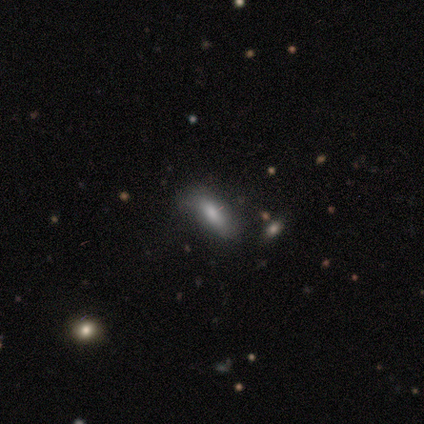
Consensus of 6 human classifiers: Smooth or featured?
  - smooth: 100% *
  - featured or disk: 0%
  - star or artifact: 0%
How rounded?
  - in between: 83% *
  - cigar-shaped: 17%
  - round: 0%
Merging?
  - none: 83% *
  - minor disturbance: 17%
  - major disturbance: 0%
  - merger: 0%